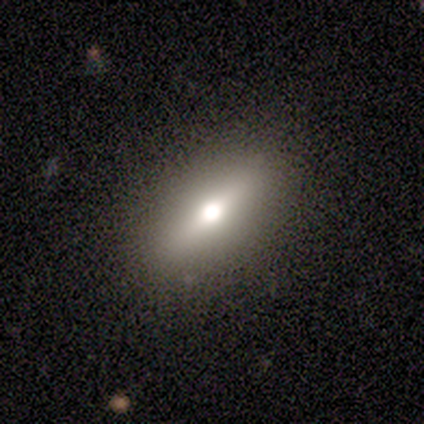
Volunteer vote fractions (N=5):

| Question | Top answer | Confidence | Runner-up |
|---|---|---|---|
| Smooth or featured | smooth | 60% | featured or disk (40%) |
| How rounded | in between | 100% | — |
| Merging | none | 100% | — |